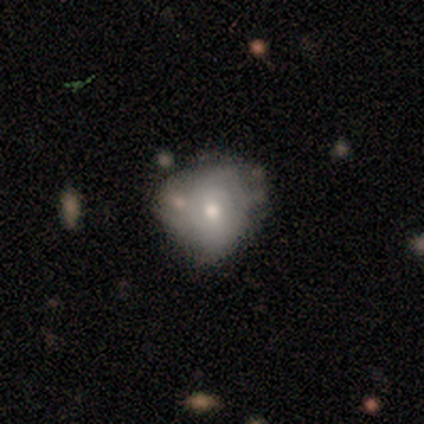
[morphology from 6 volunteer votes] A smooth galaxy with no disk features (67%) that is round (75%). Merging: minor disturbance (50%).